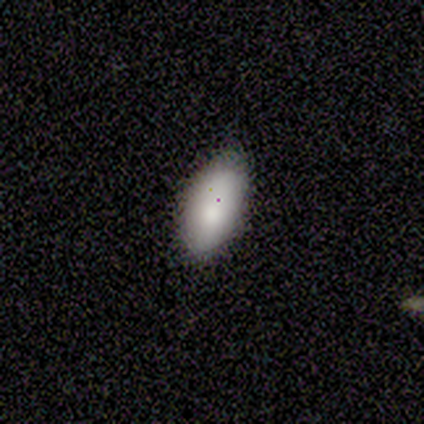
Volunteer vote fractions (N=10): smooth-or-featured: smooth: 100% | featured or disk: 0% | star or artifact: 0%
  how-rounded: in between: 90% | cigar-shaped: 10% | round: 0%
  merging: none: 60% | minor disturbance: 40% | major disturbance: 0% | merger: 0%